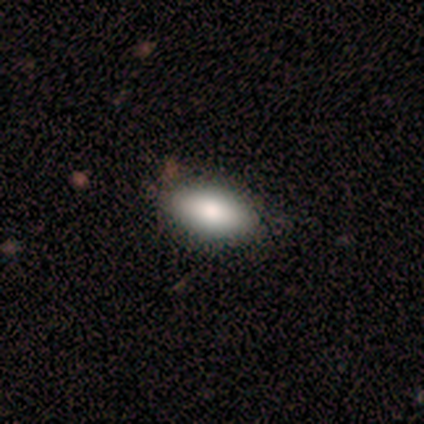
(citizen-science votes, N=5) smooth 60%, featured or disk 20%, star or artifact 20%. Down the decision tree: how rounded — in between (100%); merging — none (100%).